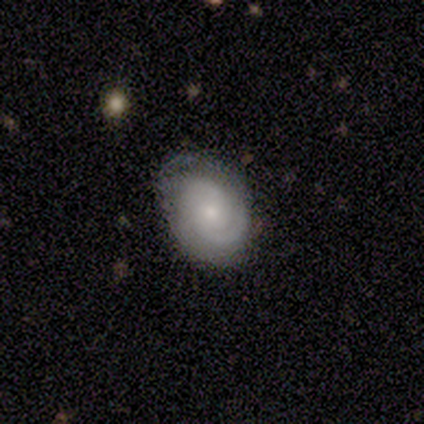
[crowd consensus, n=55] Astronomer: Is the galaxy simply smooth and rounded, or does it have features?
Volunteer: featured or disk — 71%.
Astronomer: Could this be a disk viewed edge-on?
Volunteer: no — 97%.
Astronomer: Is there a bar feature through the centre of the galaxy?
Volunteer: no — 68%.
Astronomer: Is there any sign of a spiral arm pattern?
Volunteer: yes — 97%.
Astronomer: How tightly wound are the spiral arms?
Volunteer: tight — 54% (runner-up: medium, 41%).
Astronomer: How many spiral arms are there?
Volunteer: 2 — 65%.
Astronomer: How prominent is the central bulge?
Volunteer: small — 66%.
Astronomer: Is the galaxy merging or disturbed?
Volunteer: none — 65%.